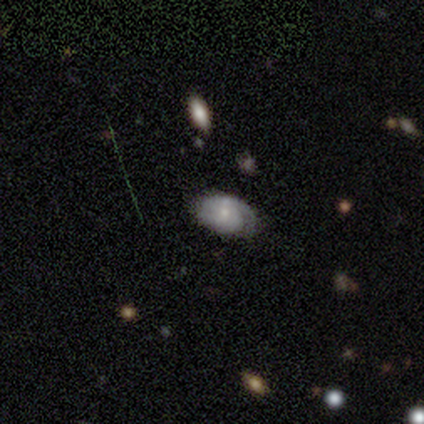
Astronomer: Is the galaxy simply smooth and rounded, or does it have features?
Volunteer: featured or disk — 75%.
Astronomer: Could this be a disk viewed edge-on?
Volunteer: no — 100%.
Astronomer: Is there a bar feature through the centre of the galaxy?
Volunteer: no — 67%.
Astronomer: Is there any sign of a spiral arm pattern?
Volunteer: yes — 100%.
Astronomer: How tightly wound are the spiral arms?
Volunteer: tight — 100%.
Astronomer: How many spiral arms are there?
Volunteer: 1 — 67%.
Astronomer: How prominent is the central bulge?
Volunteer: small — 67%.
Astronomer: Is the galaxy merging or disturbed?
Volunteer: none — 75%.